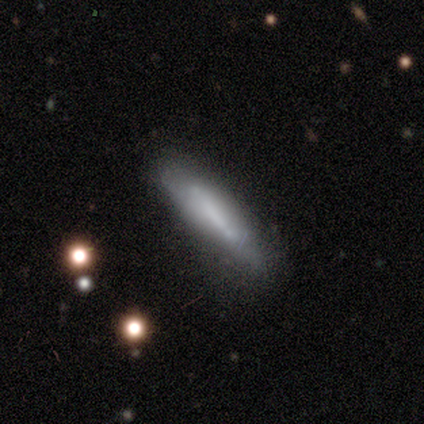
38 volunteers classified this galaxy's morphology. Smooth or featured? smooth (71%)
How rounded? cigar-shaped (85%)
Merging? none (58%)